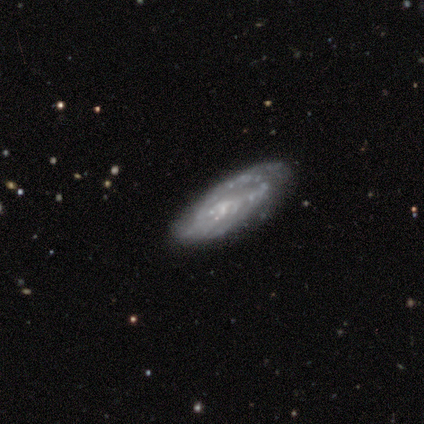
smooth-or-featured: featured or disk: 67% | smooth: 28% | star or artifact: 5%
  disk-edge-on: no: 96% | yes: 4%
    bar: no: 72% | weak: 24% | strong: 4%
    has-spiral-arms: yes: 52% | no: 48%
      spiral-winding: medium: 46% | tight: 38% | loose: 15%
      spiral-arm-count: can't tell: 77% | 2: 15% | 1: 8% | 3: 0% | 4: 0% | more than 4: 0%
    bulge-size: none: 48% | small: 44% | moderate: 8% | dominant: 0% | large: 0%
  merging: none: 73% | minor disturbance: 19% | major disturbance: 8% | merger: 0%